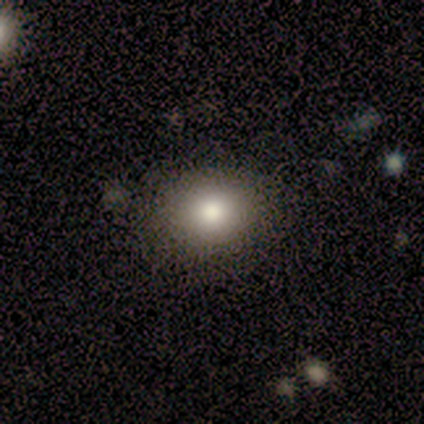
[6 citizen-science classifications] smooth-or-featured: smooth: 100% | featured or disk: 0% | star or artifact: 0%
  how-rounded: in between: 67% | round: 33% | cigar-shaped: 0%
  merging: none: 67% | minor disturbance: 33% | major disturbance: 0% | merger: 0%